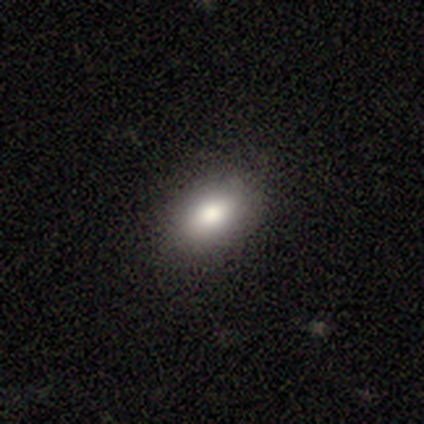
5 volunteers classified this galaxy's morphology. Smooth or featured? smooth (80%)
How rounded? in between (100%)
Merging? none (75%)